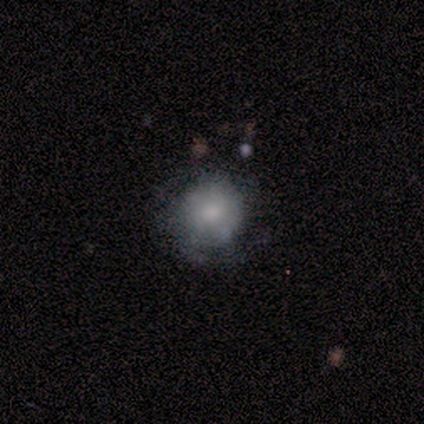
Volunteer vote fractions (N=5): Overall: featured or disk (60%; smooth 40%). Edge-on disk: no (100%). Bar: no (100%). Spiral arms: no (100%). Bulge size: small (67%; moderate 33%). Merging: none (100%).